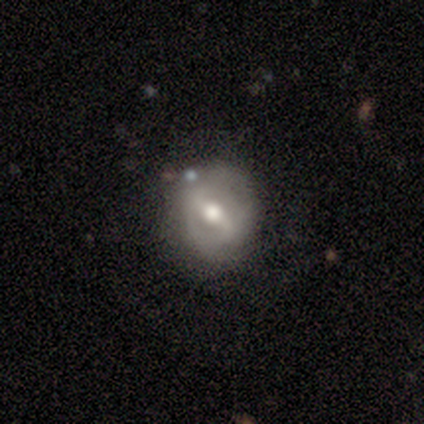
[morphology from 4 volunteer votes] This appears to be a featured or disk galaxy (75%) with a weak bar (67%), no spiral arms (67%) and a large central bulge (67%). Merging: minor disturbance (75%).